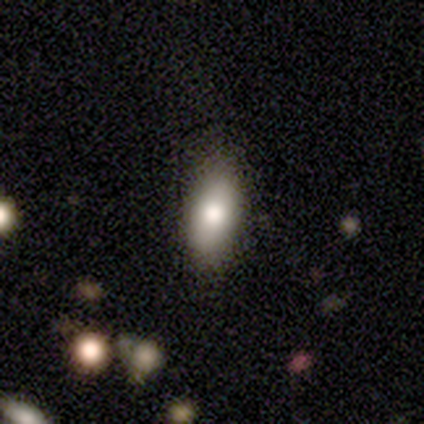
A smooth galaxy with no disk features (79%) that is in between round and cigar-shaped (87%). Merging: none (74%).